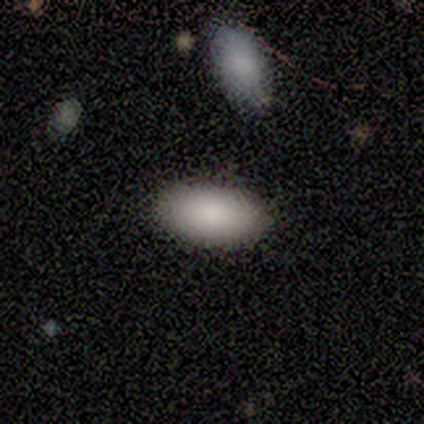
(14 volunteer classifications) A smooth galaxy with no disk features (100%) that is in between round and cigar-shaped (100%). Merging: none (71%).